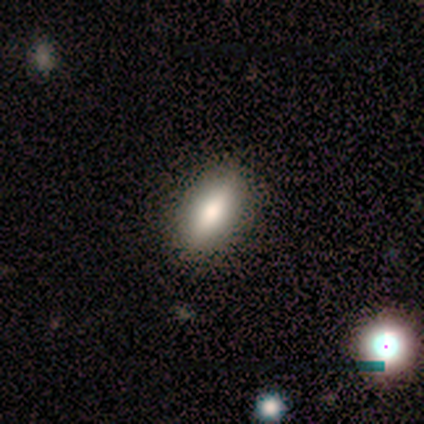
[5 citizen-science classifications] smooth 60%, featured or disk 20%, star or artifact 20%. Down the decision tree: how rounded — cigar-shaped (67%); merging — none (100%).